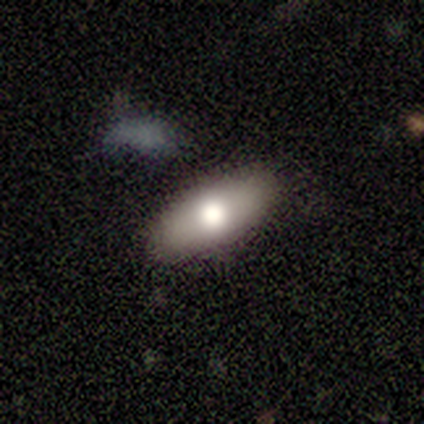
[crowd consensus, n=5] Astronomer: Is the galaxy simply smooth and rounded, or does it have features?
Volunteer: smooth — 80%.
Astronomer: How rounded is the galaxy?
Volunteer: in between — 100%.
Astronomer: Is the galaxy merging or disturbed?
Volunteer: none — 100%.